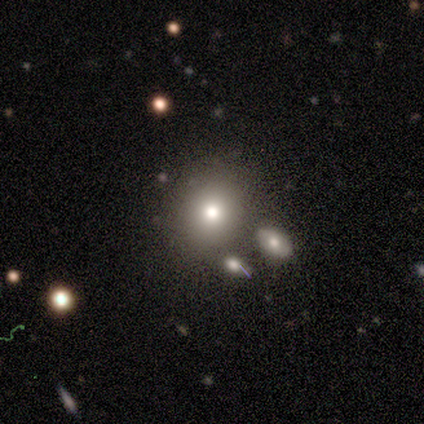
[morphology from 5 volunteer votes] Overall: smooth (60%; featured or disk 40%). How rounded: round (100%). Merging: none (80%).